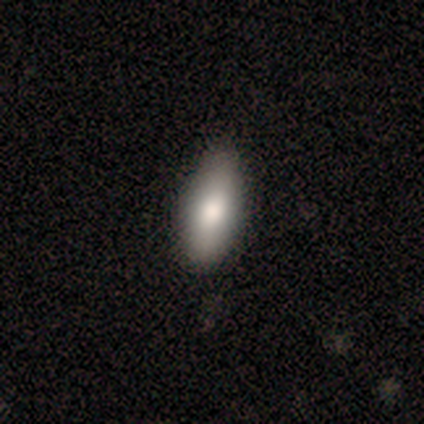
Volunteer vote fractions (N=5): A smooth galaxy with no disk features (80%) that is in between round and cigar-shaped (75%). Merging: none (100%).